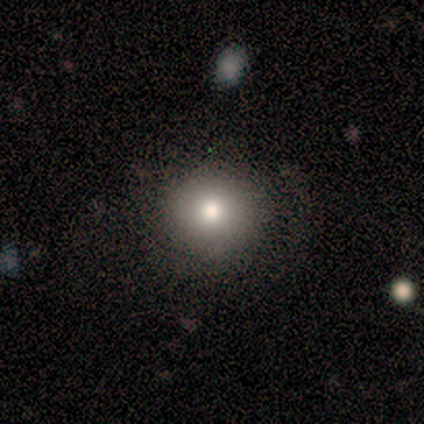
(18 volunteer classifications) smooth-or-featured: smooth: 78% | featured or disk: 17% | star or artifact: 6%
  how-rounded: round: 100% | in between: 0% | cigar-shaped: 0%
  merging: none: 71% | minor disturbance: 24% | merger: 6% | major disturbance: 0%